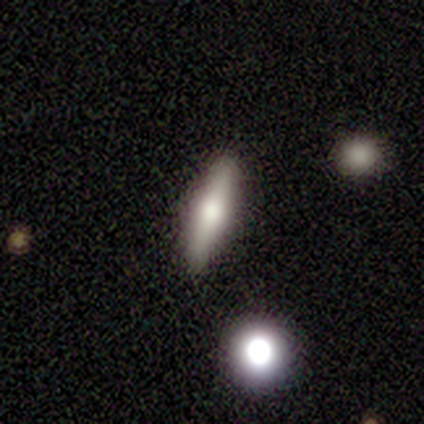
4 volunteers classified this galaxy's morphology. smooth_or_featured: smooth (p=0.50) [tied with: featured or disk p=0.50]
how_rounded: in between (p=0.50) [tied with: cigar-shaped p=0.50]
merging: none (p=1.00)